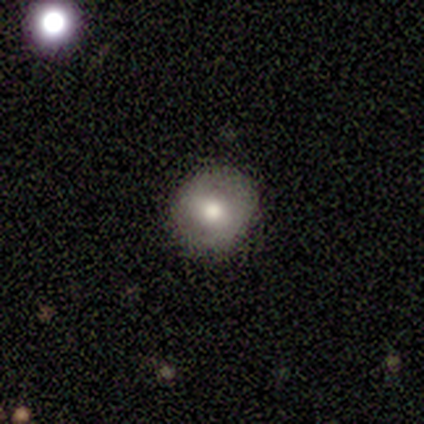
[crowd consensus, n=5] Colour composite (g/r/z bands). It shows a smooth galaxy with no disk features (80%) that is round (75%). Merging: none (100%).